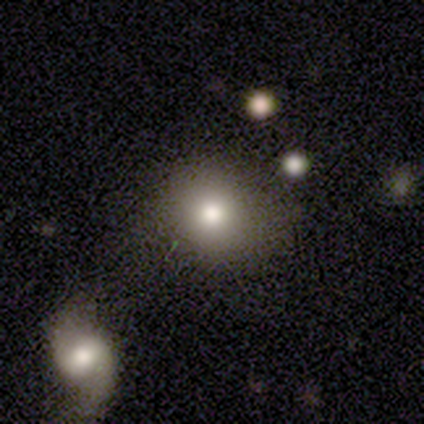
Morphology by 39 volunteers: Overall: smooth (85%). How rounded: round (88%). Merging: none (70%).